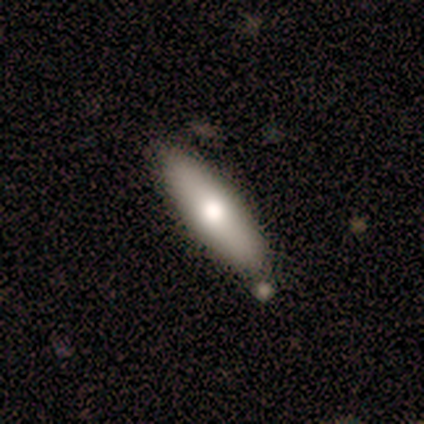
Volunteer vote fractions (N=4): Overall: smooth (50%; featured or disk 25%). How rounded: in between (50%, tied with cigar-shaped). Merging: none (100%).